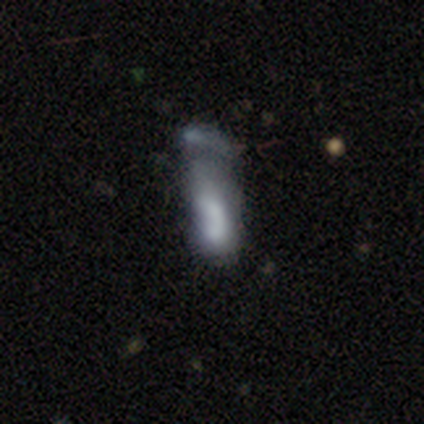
This appears to be a smooth galaxy with no disk features (68%) that is in between round and cigar-shaped (65%). Merging: major disturbance (47%).